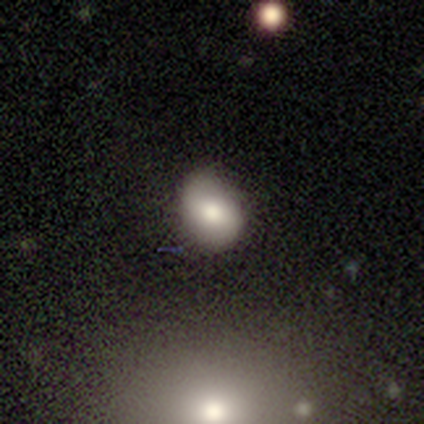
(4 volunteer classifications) Smooth or featured? 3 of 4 (75%) said smooth. How rounded? 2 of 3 (67%) said in between. Merging? 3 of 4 (75%) said minor disturbance.